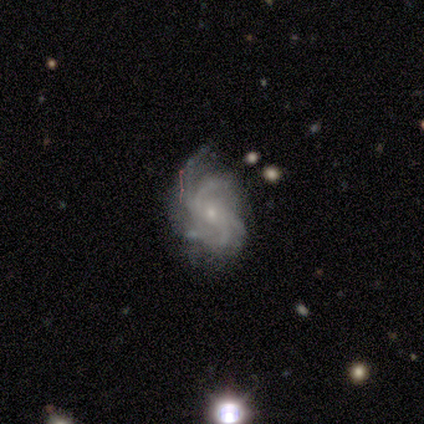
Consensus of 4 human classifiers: Smooth or featured?
  - featured or disk: 75% *
  - star or artifact: 25%
  - smooth: 0%
Edge-on disk?
  - no: 100% *
  - yes: 0%
Bar?
  - no: 100% *
  - strong: 0%
  - weak: 0%
Spiral arms?
  - yes: 100% *
  - no: 0%
Spiral winding?
  - tight: 33% * (tied)
  - medium: 33% * (tied)
  - loose: 33% * (tied)
Spiral arm count?
  - 4: 67% *
  - can't tell: 33%
  - 1: 0%
  - 2: 0%
  - 3: 0%
  - more than 4: 0%
Bulge size?
  - small: 100% *
  - dominant: 0%
  - large: 0%
  - moderate: 0%
  - none: 0%
Merging?
  - none: 100% *
  - minor disturbance: 0%
  - major disturbance: 0%
  - merger: 0%